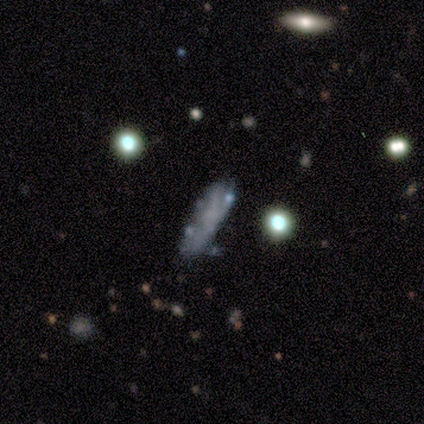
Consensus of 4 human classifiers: Smooth or featured? 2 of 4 (50%) said smooth. How rounded? 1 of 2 (50%, tied with cigar-shaped) said in between. Merging? 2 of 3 (67%) said none.